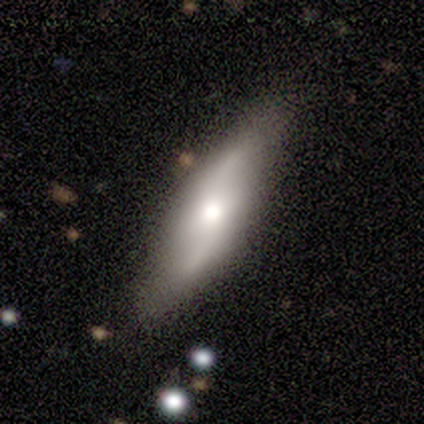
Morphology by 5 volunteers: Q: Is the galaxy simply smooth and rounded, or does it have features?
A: featured or disk — 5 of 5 (100%).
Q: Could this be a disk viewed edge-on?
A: no — 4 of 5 (80%).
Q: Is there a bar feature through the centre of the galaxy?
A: no — 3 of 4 (75%).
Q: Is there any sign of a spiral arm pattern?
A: yes — 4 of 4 (100%).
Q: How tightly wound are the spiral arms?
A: loose — 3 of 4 (75%).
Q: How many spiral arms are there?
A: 2 — 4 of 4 (100%).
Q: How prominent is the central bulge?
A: moderate — 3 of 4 (75%).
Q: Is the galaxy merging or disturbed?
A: none — 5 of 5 (100%).